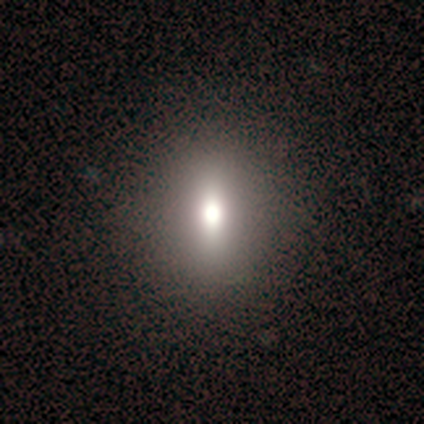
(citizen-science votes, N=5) Smooth or featured?
  - smooth: 40% * (tied)
  - featured or disk: 40% * (tied)
  - star or artifact: 20%
How rounded?
  - round: 50% * (tied)
  - in between: 50% * (tied)
  - cigar-shaped: 0%
Merging?
  - none: 100% *
  - minor disturbance: 0%
  - major disturbance: 0%
  - merger: 0%